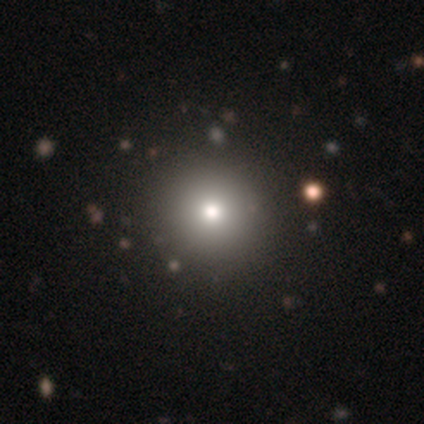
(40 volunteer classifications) Smooth or featured?
  - smooth: 68% *
  - star or artifact: 22%
  - featured or disk: 10%
How rounded?
  - round: 100% *
  - in between: 0%
  - cigar-shaped: 0%
Merging?
  - none: 68% *
  - minor disturbance: 3%
  - major disturbance: 0%
  - merger: 0%